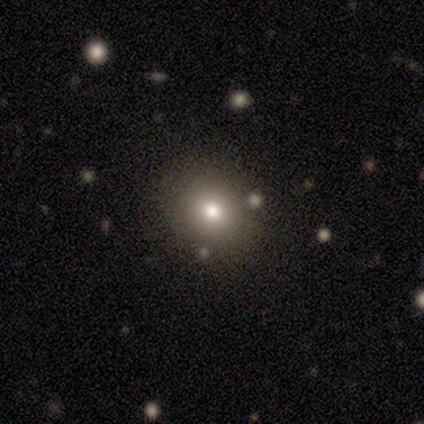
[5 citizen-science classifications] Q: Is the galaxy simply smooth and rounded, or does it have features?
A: smooth — 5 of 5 (100%).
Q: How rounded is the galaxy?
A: round — 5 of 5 (100%).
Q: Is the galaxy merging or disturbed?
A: none — 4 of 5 (80%).